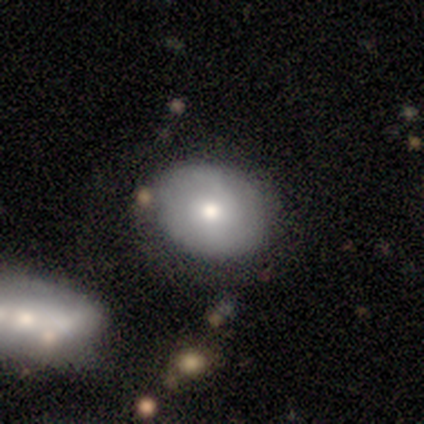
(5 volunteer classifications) A featured or disk galaxy (60%) with no bar (67%), 2 (50%, tied with can't tell) medium (50%, tied with loose) spiral arms (67%) and a moderate central bulge (100%).

Vote fractions:
- Smooth or featured? featured or disk: 60% / smooth: 40% / star or artifact: 0%
- Edge-on disk? no: 100% / yes: 0%
- Bar? no: 67% / weak: 33% / strong: 0%
- Spiral arms? yes: 67% / no: 33%
- Spiral winding? medium: 50% (tied) / loose: 50% (tied) / tight: 0%
- Spiral arm count? 2: 50% (tied) / can't tell: 50% (tied) / 1: 0% / 3: 0% / 4: 0% / more than 4: 0%
- Bulge size? moderate: 100% / dominant: 0% / large: 0% / small: 0% / none: 0%
- Merging? none: 80% / major disturbance: 20% / minor disturbance: 0% / merger: 0%